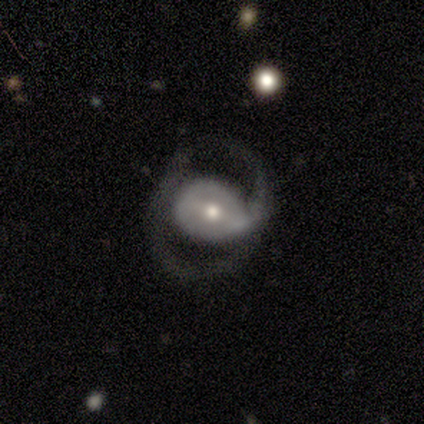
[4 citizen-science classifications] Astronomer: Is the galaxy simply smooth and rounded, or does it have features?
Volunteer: featured or disk — 75%.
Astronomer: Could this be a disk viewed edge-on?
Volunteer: no — 100%.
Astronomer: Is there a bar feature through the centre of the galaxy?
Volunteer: weak — 67%.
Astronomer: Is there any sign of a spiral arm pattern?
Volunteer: no — 67%.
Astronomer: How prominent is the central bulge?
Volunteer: moderate — 67%.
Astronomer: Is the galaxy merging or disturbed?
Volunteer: major disturbance — 67%.